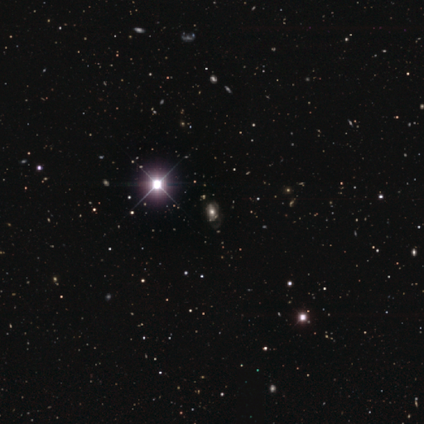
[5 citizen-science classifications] This is likely a star or artifact rather than a galaxy (60%).